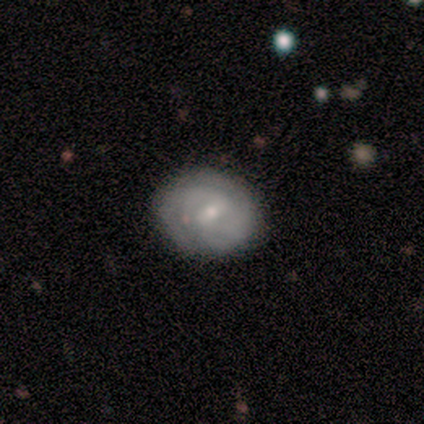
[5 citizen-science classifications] Smooth or featured: featured or disk — 60% (smooth — 40%)
Edge-on disk: no — 100%
Bar: weak — 67% (no — 33%)
Spiral arms: yes — 67% (no — 33%)
Spiral winding: tight — 50% (tied with medium — 50%)
Spiral arm count: 3 — 50% (tied with can't tell — 50%)
Bulge size: moderate — 67% (small — 33%)
Merging: none — 80% (minor disturbance — 20%)